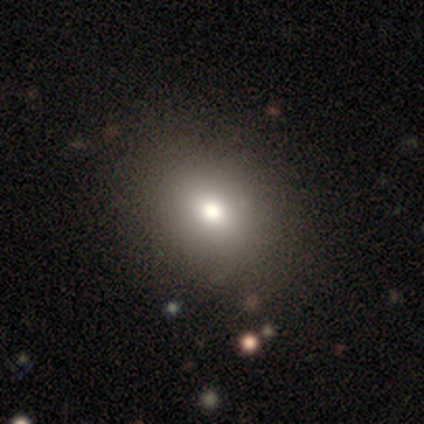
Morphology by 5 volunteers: A smooth galaxy with no disk features (80%) that is round (50%, tied with in between). Merging: none (80%).